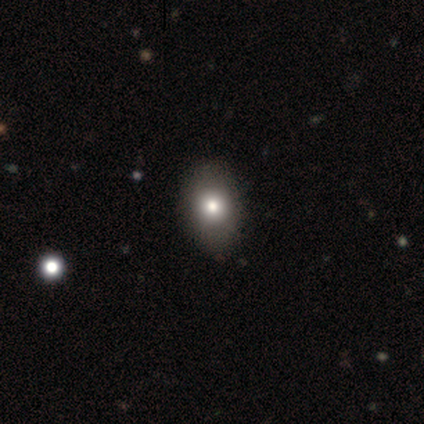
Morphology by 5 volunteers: Smooth or featured? smooth (100%)
How rounded? in between (100%)
Merging? none (100%)